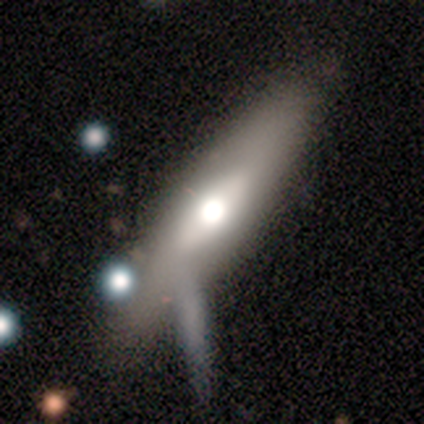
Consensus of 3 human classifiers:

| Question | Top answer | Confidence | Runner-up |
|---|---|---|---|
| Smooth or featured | smooth | 100% | — |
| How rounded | cigar-shaped | 67% | in between (33%) |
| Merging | none | 67% | major disturbance (33%) |